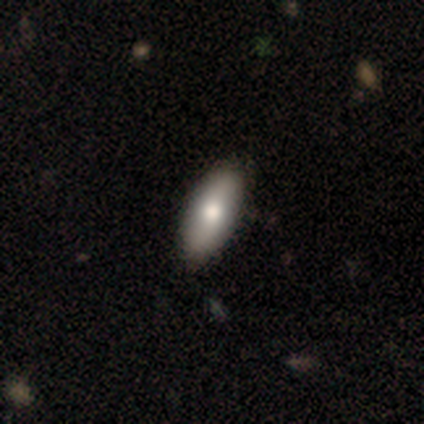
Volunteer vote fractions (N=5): A smooth galaxy with no disk features (80%) that is in between round and cigar-shaped (100%).

Vote fractions:
- Smooth or featured? smooth: 80% / star or artifact: 20% / featured or disk: 0%
- How rounded? in between: 100% / round: 0% / cigar-shaped: 0%
- Merging? none: 75% / minor disturbance: 25% / major disturbance: 0% / merger: 0%